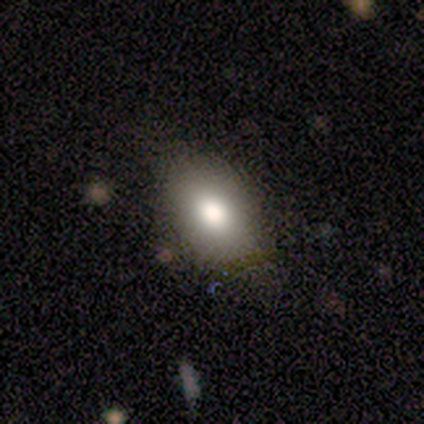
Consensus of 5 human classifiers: Morphology: type=smooth (80%); roundness=in between (100%); merging=none (100%).